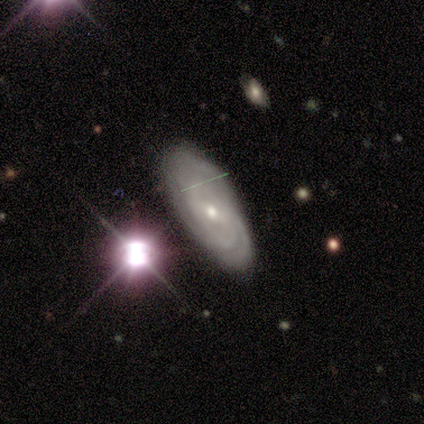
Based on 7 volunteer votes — A featured or disk galaxy (57%) with a weak bar (67%), 2 (67%) tight (67%) spiral arms (100%) and a small central bulge (67%). Merging: none (67%).